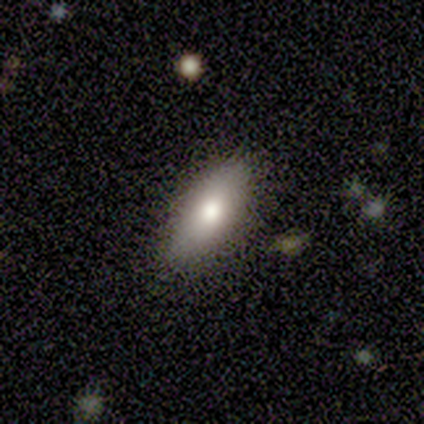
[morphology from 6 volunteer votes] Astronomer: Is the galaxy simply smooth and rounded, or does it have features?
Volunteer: smooth — 83%.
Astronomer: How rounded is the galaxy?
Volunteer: in between — 60% (runner-up: cigar-shaped, 40%).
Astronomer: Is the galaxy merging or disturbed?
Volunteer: none — 83%.